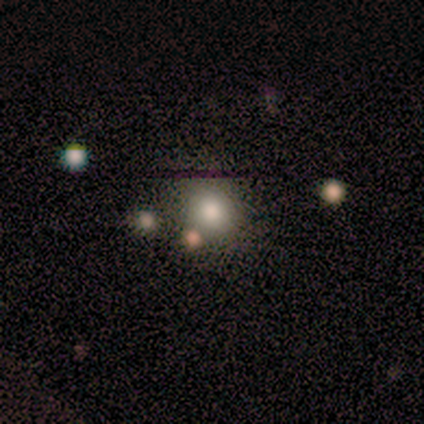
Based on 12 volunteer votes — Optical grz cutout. It shows a smooth galaxy with no disk features (67%) that is round (75%). Merging: none (78%).